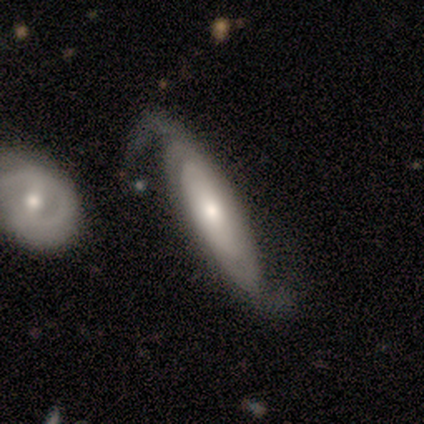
smooth_or_featured: featured or disk (p=0.74) [alt: smooth p=0.21]
disk_edge_on: no (p=0.81) [alt: yes p=0.19]
bar: no (p=0.85) [alt: weak p=0.12]
has_spiral_arms: yes (p=0.92) [alt: no p=0.08]
spiral_winding: tight (p=0.42) [alt: medium p=0.29]
spiral_arm_count: 2 (p=0.75) [alt: can't tell p=0.21]
bulge_size: moderate (p=0.46) [alt: small p=0.38]
merging: none (p=0.44) [alt: major disturbance p=0.24]